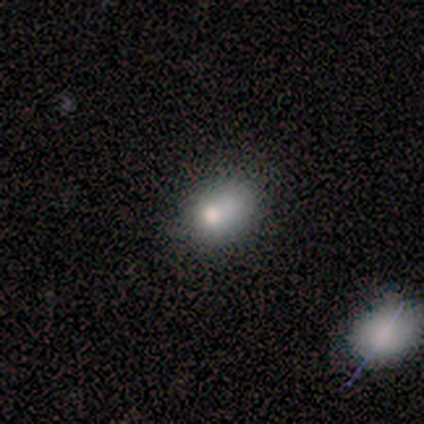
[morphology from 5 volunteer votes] Overall: smooth (80%). How rounded: in between (100%). Merging: none (50%, tied with minor disturbance).